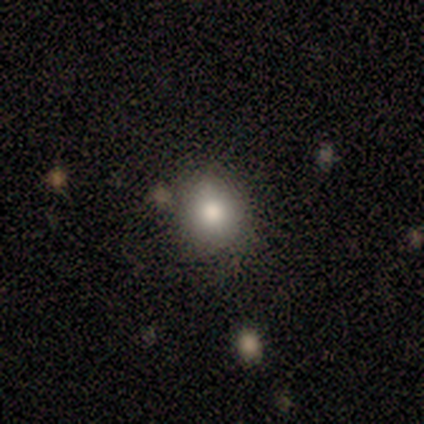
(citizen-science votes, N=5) Smooth or featured? 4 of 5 (80%) said smooth. How rounded? 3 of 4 (75%) said in between. Merging? 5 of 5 (100%) said none.